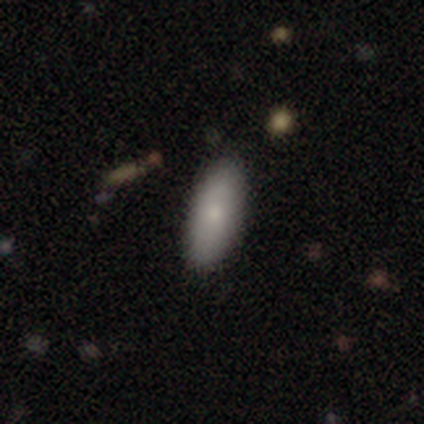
Smooth or featured? smooth (92%)
How rounded? in between (67%)
Merging? none (69%)